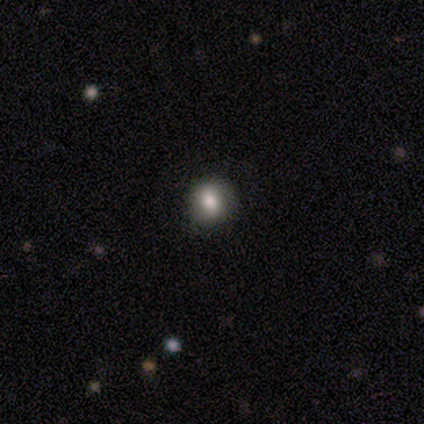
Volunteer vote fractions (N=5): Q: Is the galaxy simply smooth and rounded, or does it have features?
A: smooth — 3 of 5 (60%).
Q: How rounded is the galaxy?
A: round — 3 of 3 (100%).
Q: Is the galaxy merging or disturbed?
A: none — 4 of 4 (100%).